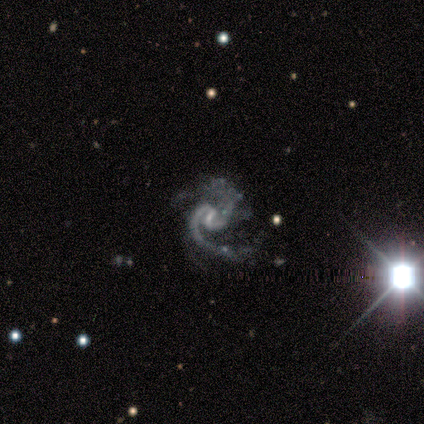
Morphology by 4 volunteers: Q: Smooth or featured?
A: featured or disk (100%)
Q: Edge-on disk?
A: no (100%)
Q: Bar?
A: weak (75%); runner-up: no (25%)
Q: Spiral arms?
A: yes (100%)
Q: Spiral winding?
A: medium (75%); runner-up: loose (25%)
Q: Spiral arm count?
A: 2 (75%); runner-up: 1 (25%)
Q: Bulge size?
A: small (75%); runner-up: none (25%)
Q: Merging?
A: major disturbance (75%); runner-up: none (25%)